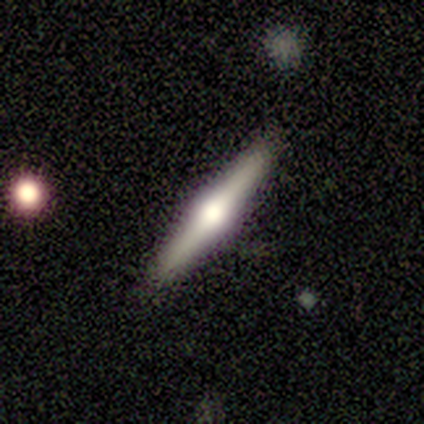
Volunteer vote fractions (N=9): Q: Smooth or featured?
A: featured or disk (78%); runner-up: smooth (11%)
Q: Edge-on disk?
A: yes (100%)
Q: Edge-on bulge?
A: rounded (100%)
Q: Merging?
A: none (100%)